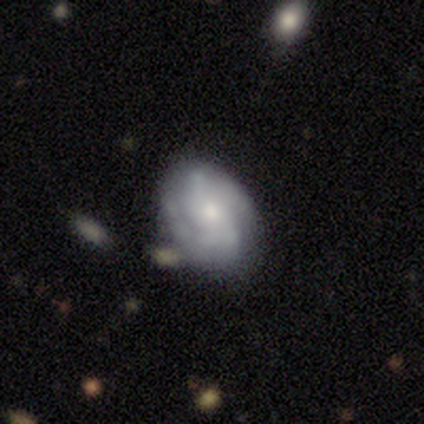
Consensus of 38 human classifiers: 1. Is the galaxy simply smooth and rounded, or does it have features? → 76% featured or disk, 21% smooth, 3% star or artifact.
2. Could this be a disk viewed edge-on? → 100% no, 0% yes.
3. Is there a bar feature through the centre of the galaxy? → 69% no, 17% weak, 14% strong.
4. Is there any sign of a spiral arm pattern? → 86% yes, 14% no.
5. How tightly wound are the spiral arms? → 48% tight (tied), 48% medium (tied), 4% loose.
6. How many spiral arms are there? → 28% 2, 24% 4, 24% can't tell, 20% 3, 4% 1, 0% more than 4.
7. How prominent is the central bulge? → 48% small, 41% moderate, 10% large, 0% dominant, 0% none.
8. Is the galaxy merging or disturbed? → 78% none, 11% minor disturbance, 8% merger, 3% major disturbance.